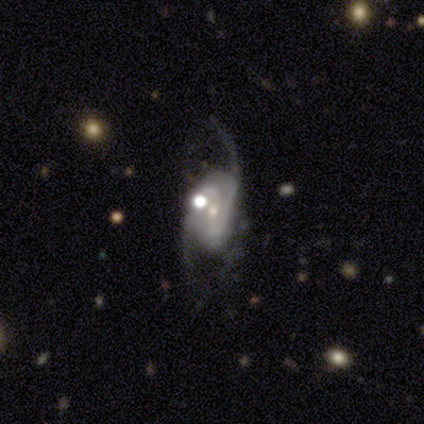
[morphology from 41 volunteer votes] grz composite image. It shows a featured or disk galaxy (93%) with no bar (43%), 2 (79%) medium (50%) spiral arms (92%) and a small central bulge (78%). Merging: major disturbance (45%).